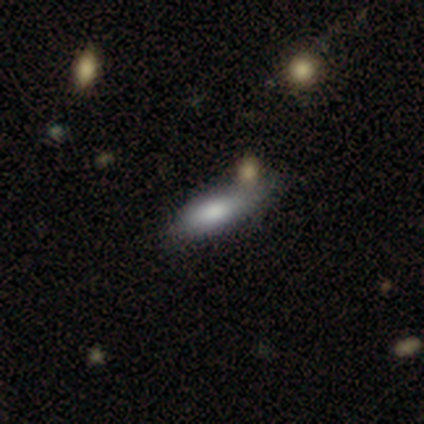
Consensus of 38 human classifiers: Morphology: type=smooth (74%); roundness=cigar-shaped (61%); merging=none (47%).